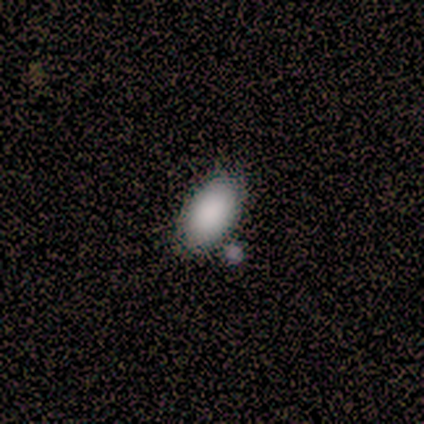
Smooth or featured? smooth (100%)
How rounded? in between (60%)
Merging? merger (40%)